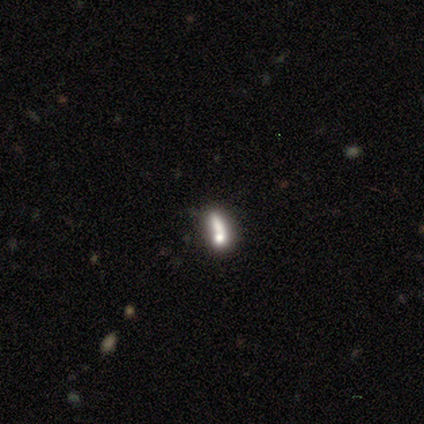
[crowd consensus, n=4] Volunteers were most divided on "smooth or featured" (2-way tie): smooth: 50%, featured or disk: 50%, star or artifact: 0%; "how rounded" (2-way tie): in between: 50%, cigar-shaped: 50%, round: 0%. More confident: merging — none (50%).